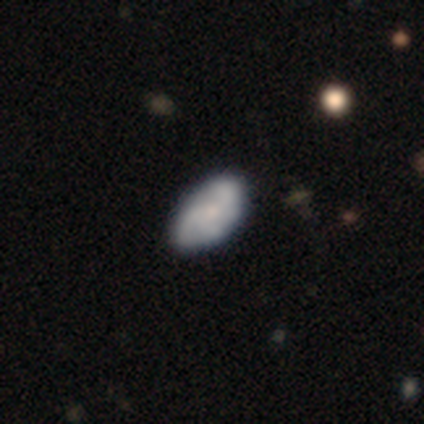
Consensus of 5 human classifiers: smooth_or_featured: smooth (p=0.60) [alt: featured or disk p=0.20]
how_rounded: in between (p=1.00)
merging: none (p=0.50) [tied with: minor disturbance p=0.50]